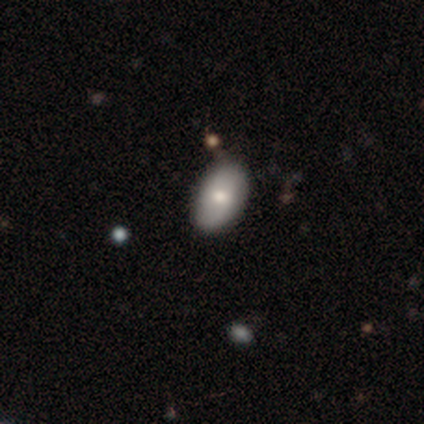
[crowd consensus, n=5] Volunteers were most divided on "smooth or featured": smooth: 80%, featured or disk: 20%, star or artifact: 0%. More confident: how rounded — in between (100%); merging — none (100%).